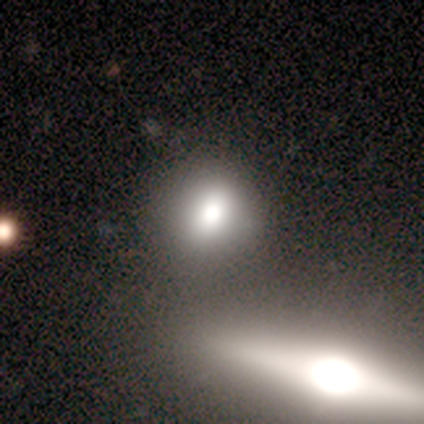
A smooth galaxy with no disk features (80%) that is round (50%, tied with in between). Merging: none (40%, tied with merger).